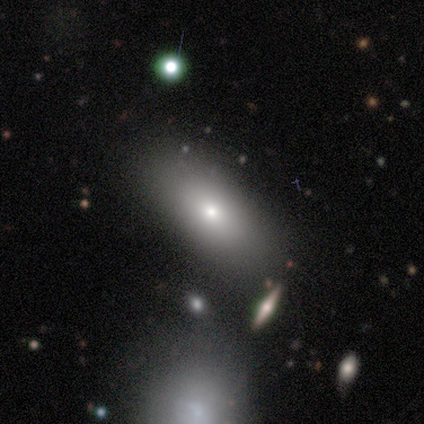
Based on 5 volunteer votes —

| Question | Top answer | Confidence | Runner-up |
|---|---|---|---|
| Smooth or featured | smooth | 60% | featured or disk (40%) |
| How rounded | in between | 100% | — |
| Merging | none | 100% | — |